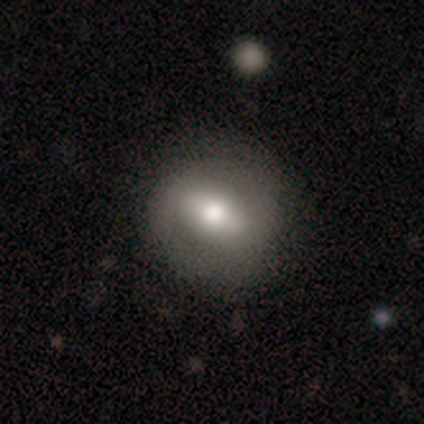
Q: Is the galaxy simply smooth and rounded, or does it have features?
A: smooth — 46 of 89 (52%).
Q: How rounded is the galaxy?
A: round — 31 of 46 (67%).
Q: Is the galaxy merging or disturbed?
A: none — 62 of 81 (77%).